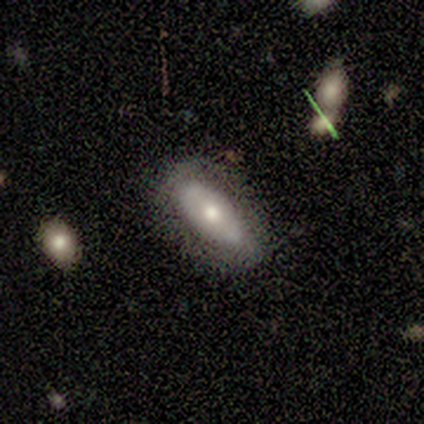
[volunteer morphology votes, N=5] smooth_or_featured: smooth (p=0.60) [alt: featured or disk p=0.40]
how_rounded: in between (p=1.00)
merging: none (p=0.60) [alt: minor disturbance p=0.20]